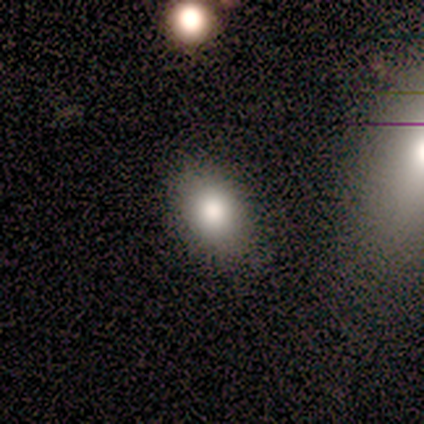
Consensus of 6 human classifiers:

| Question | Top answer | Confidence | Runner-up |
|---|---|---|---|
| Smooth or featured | smooth | 83% | featured or disk (17%) |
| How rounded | in between | 80% | round (20%) |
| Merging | none | 100% | — |